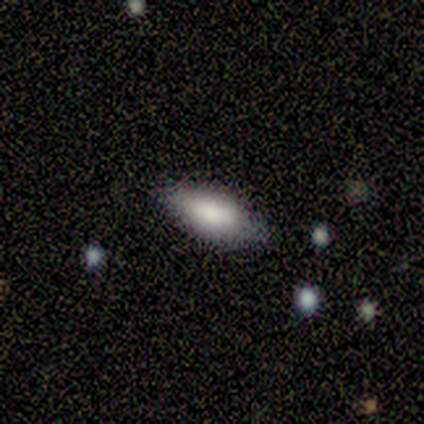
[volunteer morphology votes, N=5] Volunteers were most divided on "how rounded": in between: 75%, cigar-shaped: 25%, round: 0%. More confident: smooth or featured — smooth (80%); merging — none (80%).